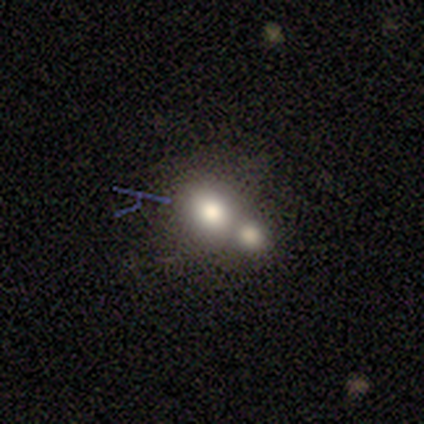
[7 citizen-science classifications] smooth 43% (tied), star or artifact 43% (tied), featured or disk 14%. Down the decision tree: how rounded — round (100%); merging — merger (50%).